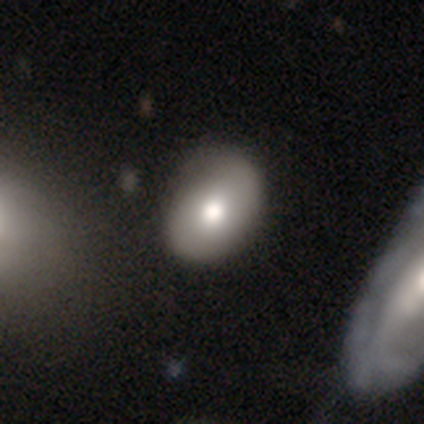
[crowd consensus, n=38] This is possibly a smooth galaxy (58%). How rounded: likely in between (77%). Merging: possibly none (57%).